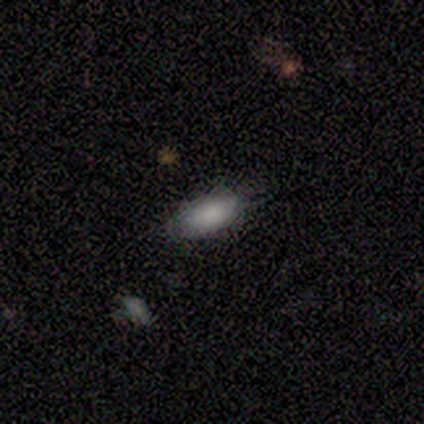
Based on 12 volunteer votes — Smooth or featured: smooth — 83% (featured or disk — 17%)
How rounded: in between — 90% (round — 10%)
Merging: none — 92% (minor disturbance — 8%)